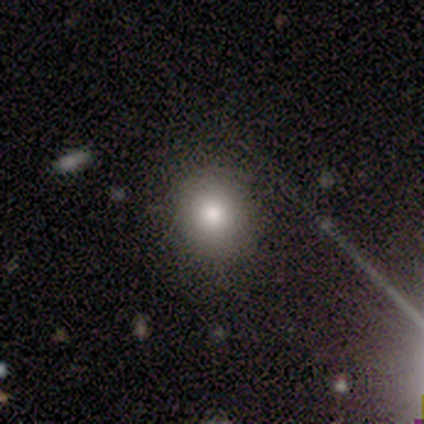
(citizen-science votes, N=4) This is likely a smooth galaxy (75%). How rounded: likely round (67%). Merging: likely none (67%).